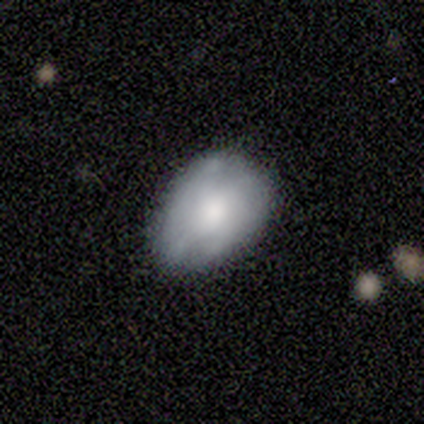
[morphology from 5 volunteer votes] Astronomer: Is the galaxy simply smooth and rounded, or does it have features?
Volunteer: smooth — 60% (runner-up: featured or disk, 40%).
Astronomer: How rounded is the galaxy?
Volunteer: in between — 100%.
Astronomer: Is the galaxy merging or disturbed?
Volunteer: minor disturbance — 60% (runner-up: none, 40%).